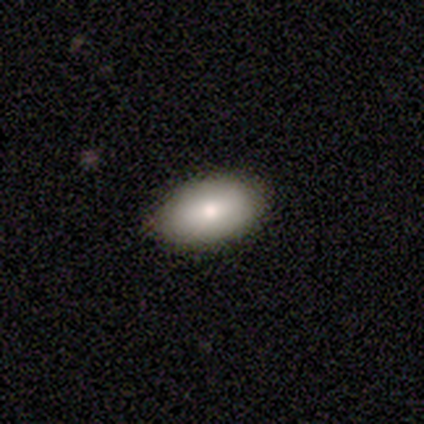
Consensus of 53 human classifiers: Morphology: type=smooth (74%); roundness=in between (100%); merging=none (94%).